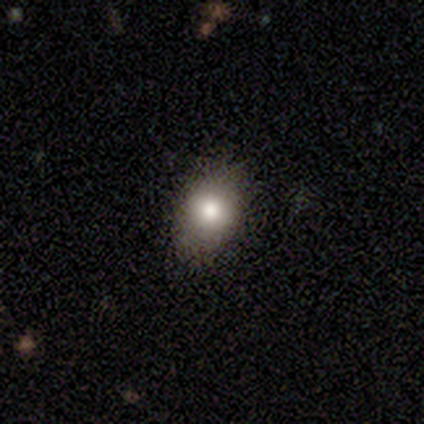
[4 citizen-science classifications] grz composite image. It shows a smooth galaxy with no disk features (75%) that is in between round and cigar-shaped (100%). Merging: none (100%).